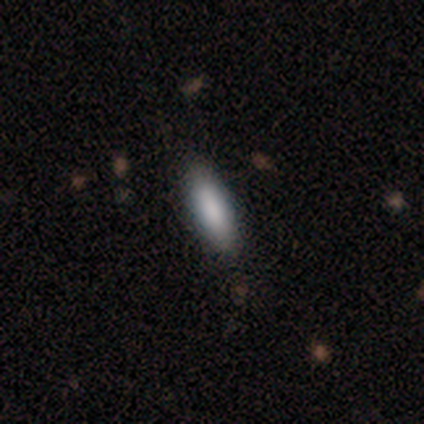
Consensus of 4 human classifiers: This is likely a smooth galaxy (75%). How rounded: likely cigar-shaped (67%). Merging: clearly none (100%).